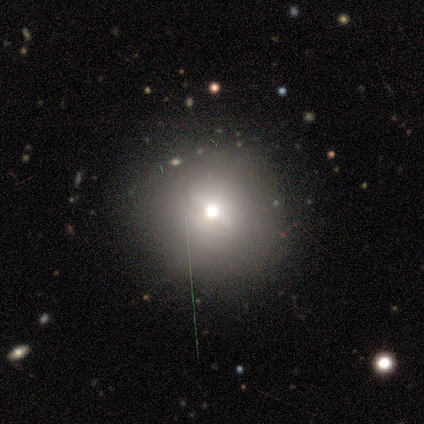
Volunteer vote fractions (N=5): A featured or disk galaxy (60%) with a weak bar (100%), no spiral arms (100%) and a moderate central bulge (100%).

Vote fractions:
- Smooth or featured? featured or disk: 60% / smooth: 40% / star or artifact: 0%
- Edge-on disk? no: 67% / yes: 33%
- Bar? weak: 100% / strong: 0% / no: 0%
- Spiral arms? no: 100% / yes: 0%
- Bulge size? moderate: 100% / dominant: 0% / large: 0% / small: 0% / none: 0%
- Merging? none: 80% / merger: 20% / minor disturbance: 0% / major disturbance: 0%